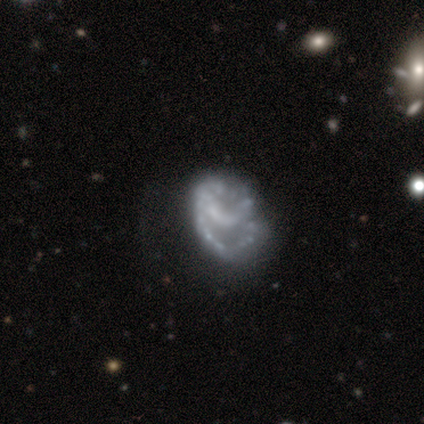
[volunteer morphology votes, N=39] This appears to be a featured or disk galaxy (90%) with no bar (60%), no spiral arms (60%) and no central bulge (80%). Merging: none (38%).